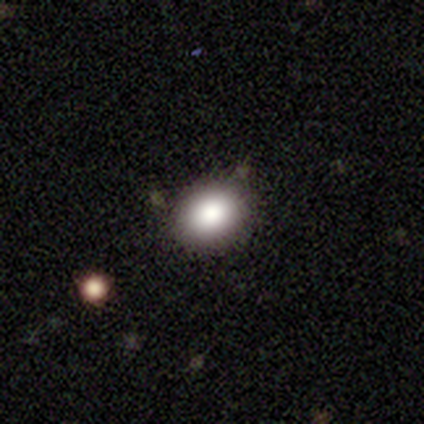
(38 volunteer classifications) Smooth or featured? smooth (84%)
How rounded? round (69%)
Merging? none (76%)